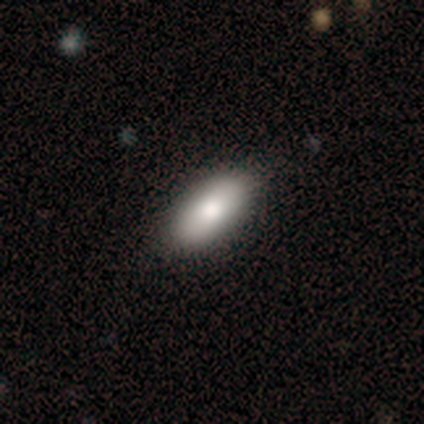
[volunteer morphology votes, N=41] A smooth galaxy with no disk features (80%) that is in between round and cigar-shaped (91%). Merging: none (77%).